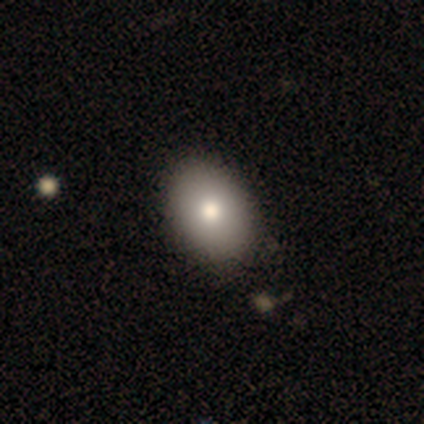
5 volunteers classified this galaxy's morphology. Smooth or featured? 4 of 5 (80%) said smooth. How rounded? 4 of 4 (100%) said in between. Merging? 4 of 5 (80%) said none.